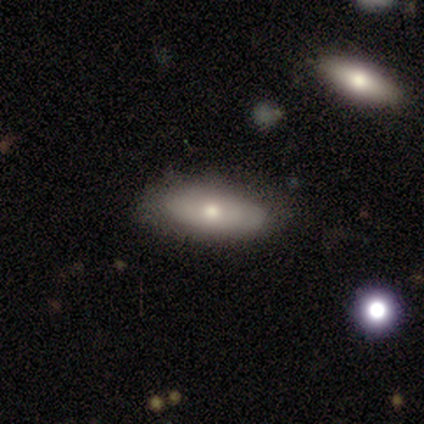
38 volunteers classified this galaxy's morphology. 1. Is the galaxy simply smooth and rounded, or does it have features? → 66% smooth, 32% featured or disk, 3% star or artifact.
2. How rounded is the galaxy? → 76% in between, 24% cigar-shaped, 0% round.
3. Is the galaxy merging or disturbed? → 81% none, 16% minor disturbance, 3% major disturbance, 0% merger.